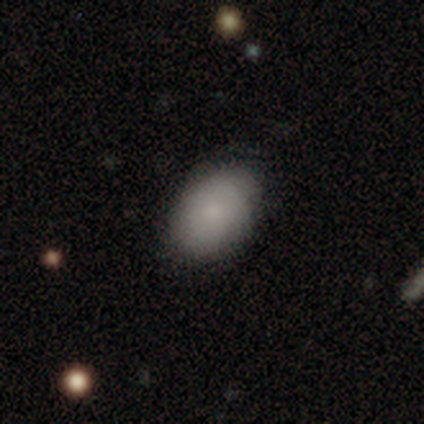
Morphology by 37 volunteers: Q: Smooth or featured?
A: smooth (81%); runner-up: featured or disk (16%)
Q: How rounded?
A: in between (87%); runner-up: round (10%)
Q: Merging?
A: none (78%); runner-up: minor disturbance (22%)